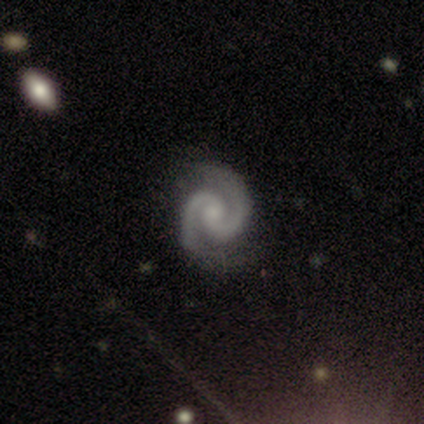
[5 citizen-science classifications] A featured or disk galaxy (80%) with no bar (75%), 2 (100%) tight (75%) spiral arms (100%) and a small central bulge (50%). Merging: none (100%).